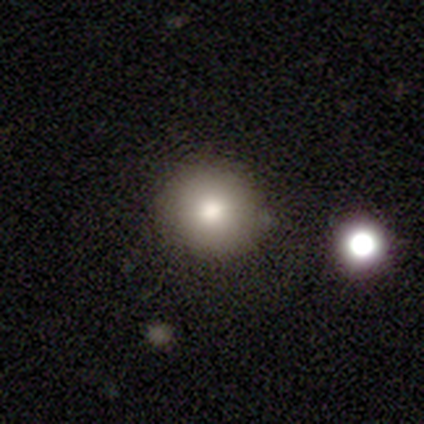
smooth-or-featured: smooth: 72% | star or artifact: 18% | featured or disk: 10%
  how-rounded: round: 89% | in between: 11% | cigar-shaped: 0%
  merging: none: 88% | minor disturbance: 12% | major disturbance: 0% | merger: 0%